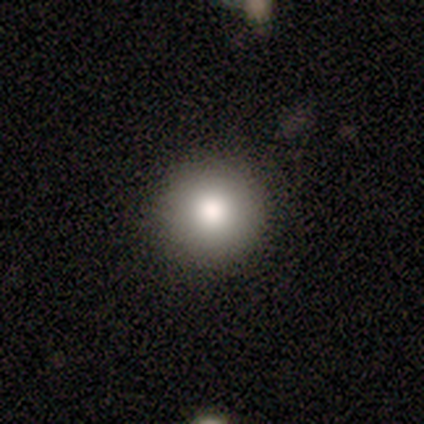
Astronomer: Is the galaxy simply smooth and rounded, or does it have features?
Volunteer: smooth — 100%.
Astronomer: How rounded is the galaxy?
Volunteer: round — 100%.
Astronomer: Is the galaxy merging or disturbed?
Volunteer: none — 100%.